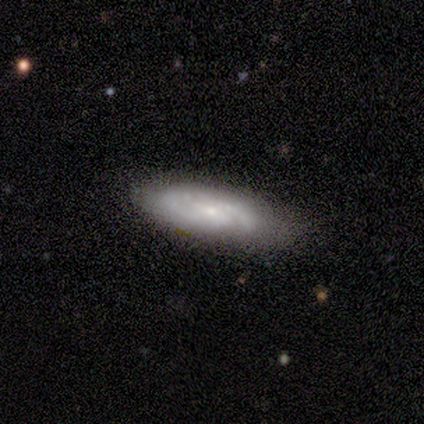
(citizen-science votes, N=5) smooth_or_featured: featured or disk (p=0.60) [alt: smooth p=0.40]
disk_edge_on: no (p=1.00)
bar: no (p=0.67) [alt: weak p=0.33]
has_spiral_arms: yes (p=0.67) [alt: no p=0.33]
spiral_winding: tight (p=1.00)
spiral_arm_count: 2 (p=0.50) [tied with: can't tell p=0.50]
bulge_size: small (p=1.00)
merging: none (p=0.80) [alt: minor disturbance p=0.20]